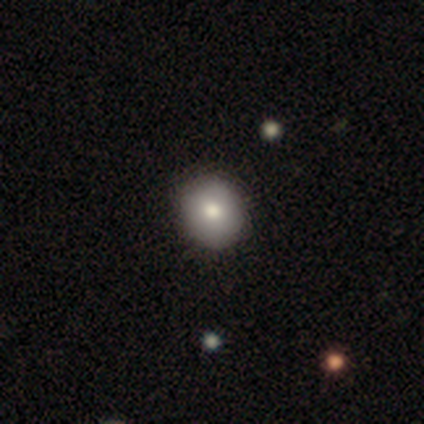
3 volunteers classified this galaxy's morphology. smooth 67%, featured or disk 33%, star or artifact 0%. Down the decision tree: how rounded — round (50%, tied with in between); merging — none (100%).